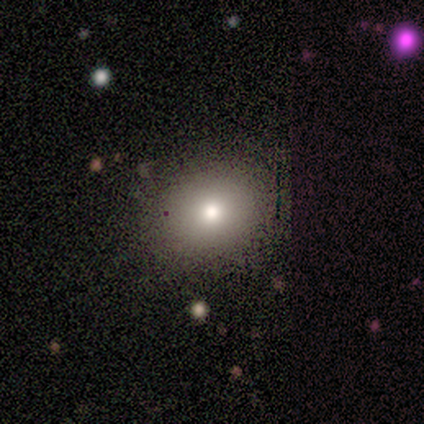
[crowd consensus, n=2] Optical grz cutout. It shows a star or artifact, not a galaxy (100%).